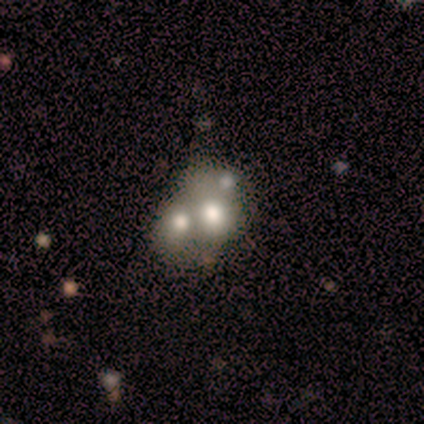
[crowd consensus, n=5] Overall: featured or disk (60%; star or artifact 40%). Edge-on disk: no (67%; yes 33%). Bar: no (100%). Spiral arms: no (100%). Bulge size: large (50%, tied with none). Merging: none (33%, tied with major disturbance and merger).